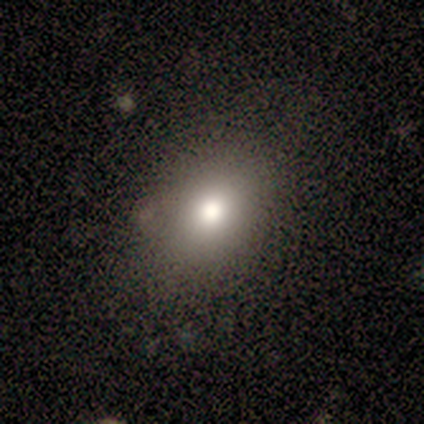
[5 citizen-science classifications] This appears to be a smooth galaxy with no disk features (80%) that is in between round and cigar-shaped (100%). Merging: none (75%).